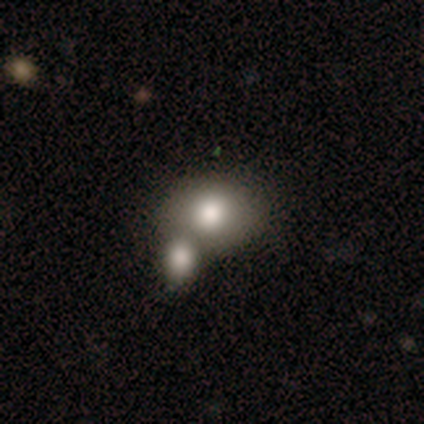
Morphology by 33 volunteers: smooth-or-featured: smooth: 88% | featured or disk: 9% | star or artifact: 3%
  how-rounded: round: 66% | in between: 34% | cigar-shaped: 0%
  merging: merger: 88% | none: 0% | minor disturbance: 0% | major disturbance: 0%